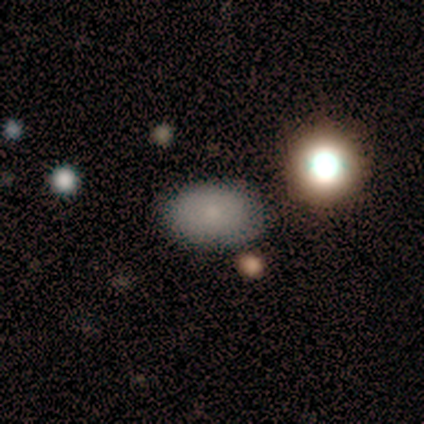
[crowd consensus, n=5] Morphology: type=smooth (80%); roundness=in between (100%); merging=none (100%).